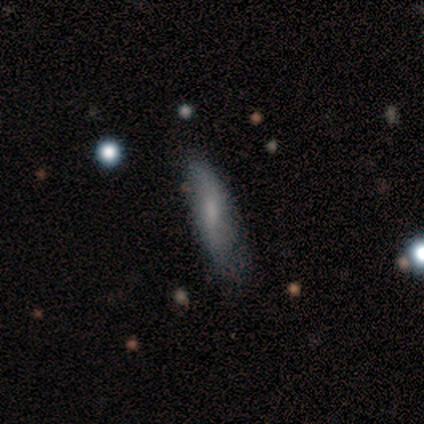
Smooth or featured? smooth (75%)
How rounded? in between (67%)
Merging? none (67%)